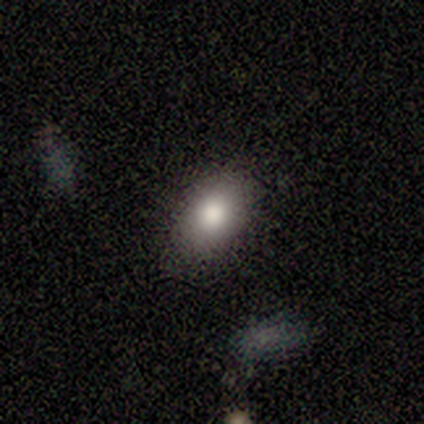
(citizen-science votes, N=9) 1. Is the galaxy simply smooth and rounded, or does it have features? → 78% smooth, 22% featured or disk, 0% star or artifact.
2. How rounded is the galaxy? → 100% in between, 0% round, 0% cigar-shaped.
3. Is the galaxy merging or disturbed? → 100% none, 0% minor disturbance, 0% major disturbance, 0% merger.